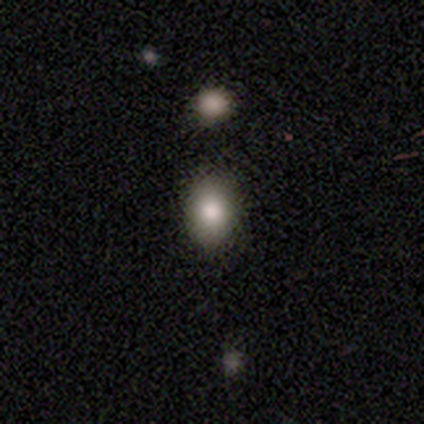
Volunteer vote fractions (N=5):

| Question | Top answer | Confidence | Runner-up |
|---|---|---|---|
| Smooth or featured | smooth | 80% | star or artifact (20%) |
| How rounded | round | 50% | tied: in between (50%) |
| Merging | none | 75% | merger (25%) |